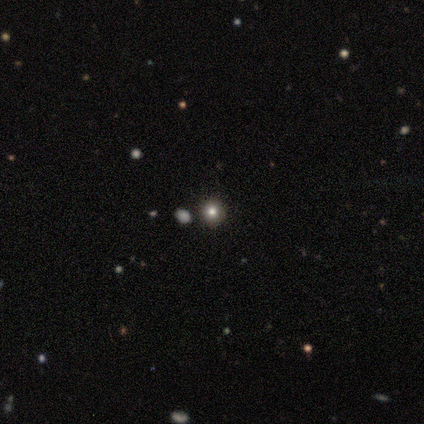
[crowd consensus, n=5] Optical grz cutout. It shows a smooth galaxy with no disk features (60%) that is round (100%). Merging: none (80%).